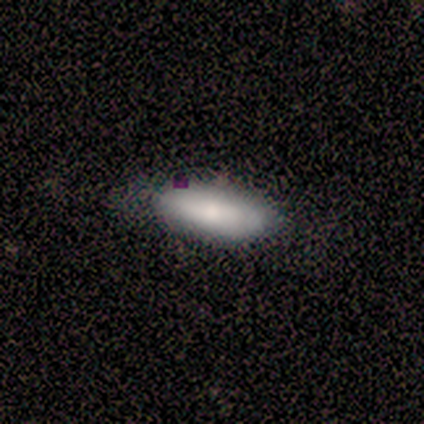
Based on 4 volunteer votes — Smooth or featured? smooth (75%)
How rounded? in between (100%)
Merging? none (67%)